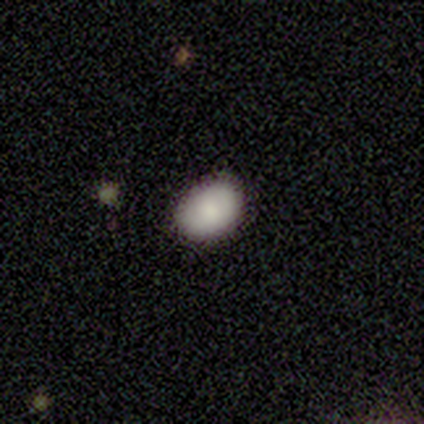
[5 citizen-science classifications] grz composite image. It shows a smooth galaxy with no disk features (100%) that is in between round and cigar-shaped (60%). Merging: none (60%).